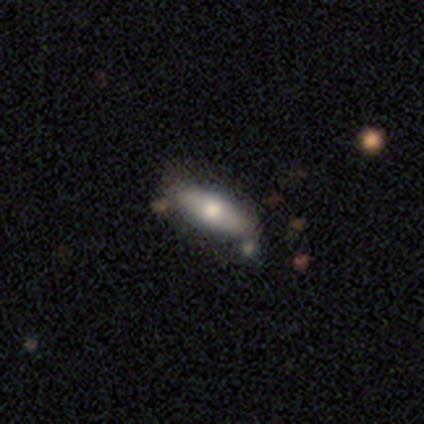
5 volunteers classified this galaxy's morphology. Smooth or featured?
  - smooth: 80% *
  - featured or disk: 20%
  - star or artifact: 0%
How rounded?
  - cigar-shaped: 75% *
  - in between: 25%
  - round: 0%
Merging?
  - none: 100% *
  - minor disturbance: 0%
  - major disturbance: 0%
  - merger: 0%